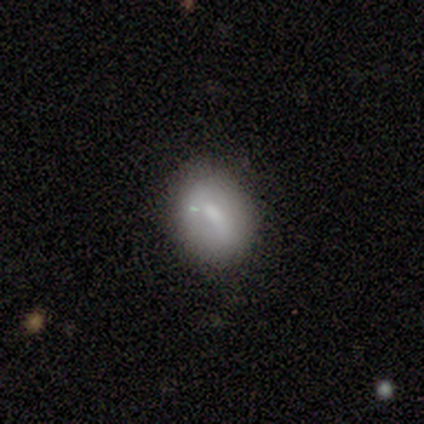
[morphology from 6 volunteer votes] A smooth galaxy with no disk features (67%) that is in between round and cigar-shaped (100%). Merging: none (67%).